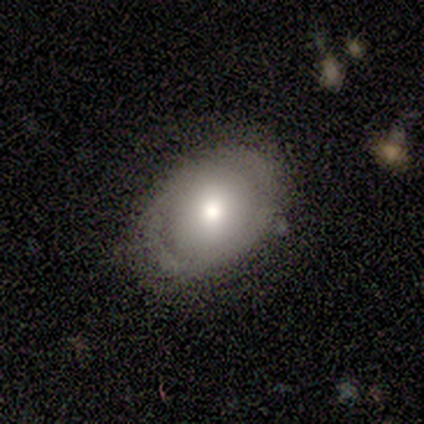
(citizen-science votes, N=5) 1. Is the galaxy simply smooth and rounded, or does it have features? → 80% smooth, 20% featured or disk, 0% star or artifact.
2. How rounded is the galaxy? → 75% in between, 25% round, 0% cigar-shaped.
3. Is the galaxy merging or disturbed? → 80% none, 20% minor disturbance, 0% major disturbance, 0% merger.